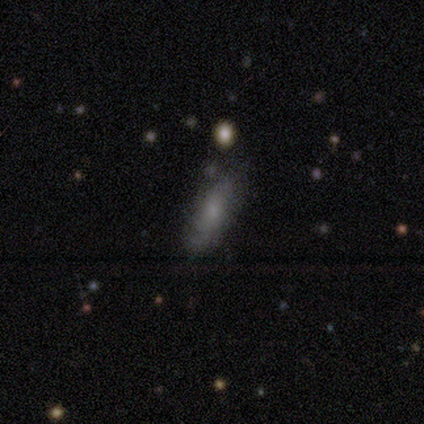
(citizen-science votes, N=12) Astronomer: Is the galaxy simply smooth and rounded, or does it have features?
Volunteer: smooth — 50%.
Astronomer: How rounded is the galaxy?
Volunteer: cigar-shaped — 67%.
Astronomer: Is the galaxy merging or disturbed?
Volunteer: none — 67%.